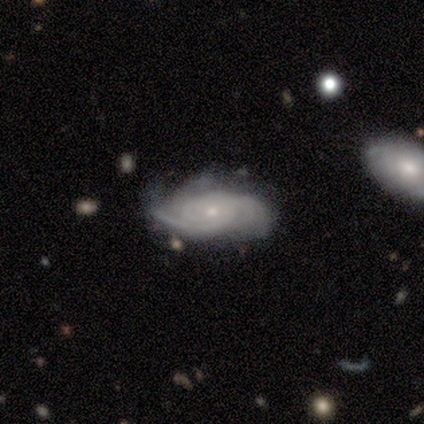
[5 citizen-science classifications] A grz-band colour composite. It shows a featured or disk galaxy (100%) with no bar (80%), 2 (60%) tight (40%, tied with medium) spiral arms (100%) and a small central bulge (100%). Merging: none (40%, tied with minor disturbance).